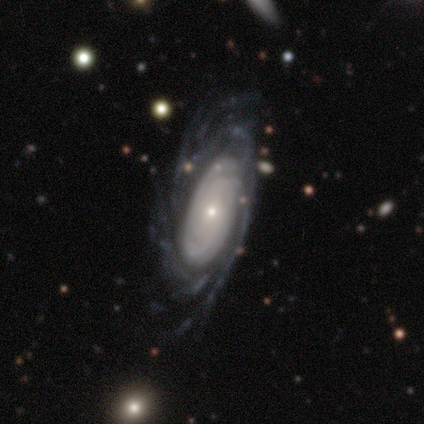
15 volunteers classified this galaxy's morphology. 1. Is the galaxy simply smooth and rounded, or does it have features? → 93% featured or disk, 7% smooth, 0% star or artifact.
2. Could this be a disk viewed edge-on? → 93% no, 7% yes.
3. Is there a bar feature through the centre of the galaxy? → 92% no, 8% weak, 0% strong.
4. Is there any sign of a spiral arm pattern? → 85% yes, 15% no.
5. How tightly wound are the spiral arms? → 55% tight, 27% medium, 18% loose.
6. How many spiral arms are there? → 36% can't tell, 27% more than 4, 18% 3, 18% 4, 0% 1, 0% 2.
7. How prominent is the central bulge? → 62% small, 23% large, 8% dominant, 8% moderate, 0% none.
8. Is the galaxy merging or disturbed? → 53% none, 27% minor disturbance, 20% major disturbance, 0% merger.